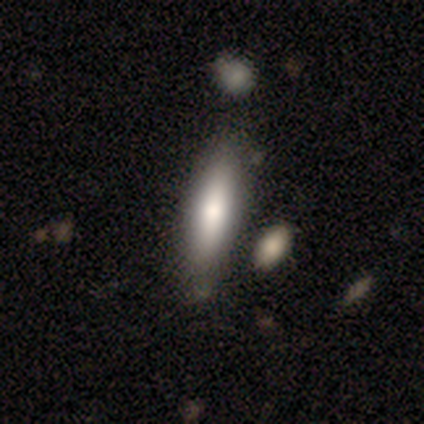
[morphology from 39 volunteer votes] Smooth or featured? smooth (74%)
How rounded? cigar-shaped (52%)
Merging? none (61%)